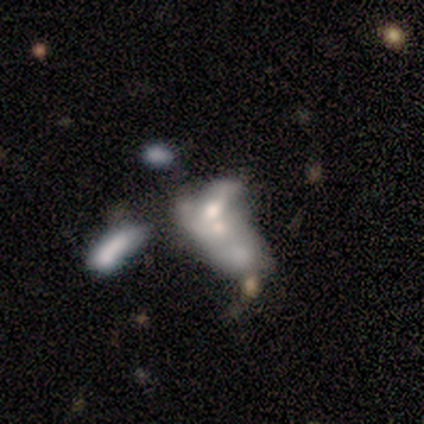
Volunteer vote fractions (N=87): Smooth or featured: featured or disk — 57% (smooth — 28%)
Edge-on disk: no — 100%
Bar: no — 70% (weak — 20%)
Spiral arms: no — 92% (yes — 8%)
Bulge size: moderate — 48% (small — 28%)
Merging: merger — 73% (major disturbance — 14%)